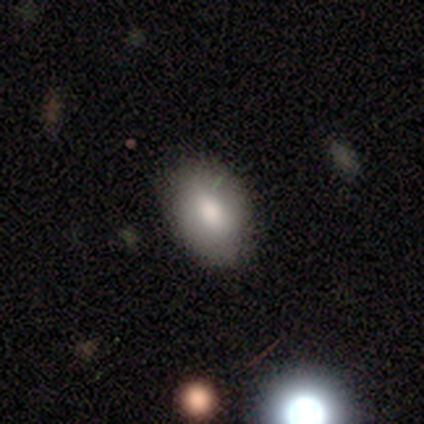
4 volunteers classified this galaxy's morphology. Smooth or featured? smooth (75%)
How rounded? in between (67%)
Merging? none (100%)